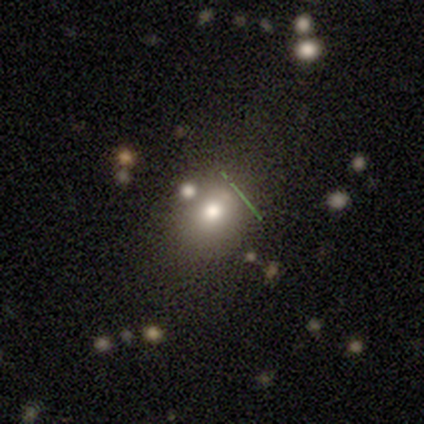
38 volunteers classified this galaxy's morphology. This is possibly a smooth galaxy (58%). How rounded: likely round (68%). Merging: likely none (75%).